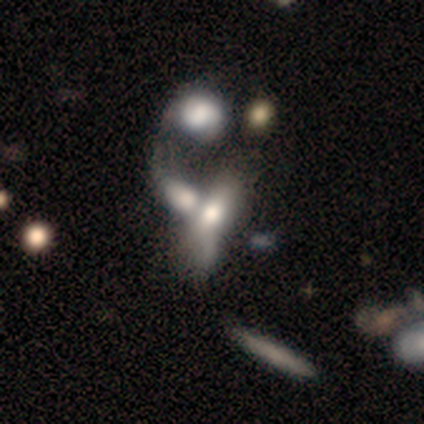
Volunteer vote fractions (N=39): Q: Smooth or featured?
A: smooth (46%); runner-up: featured or disk (31%)
Q: How rounded?
A: in between (83%); runner-up: round (11%)
Q: Merging?
A: merger (67%); runner-up: major disturbance (7%)